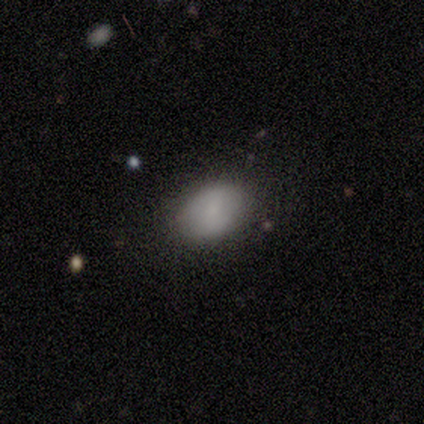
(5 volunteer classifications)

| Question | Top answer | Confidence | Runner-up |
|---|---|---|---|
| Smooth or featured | smooth | 60% | featured or disk (40%) |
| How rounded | in between | 100% | — |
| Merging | none | 80% | merger (20%) |